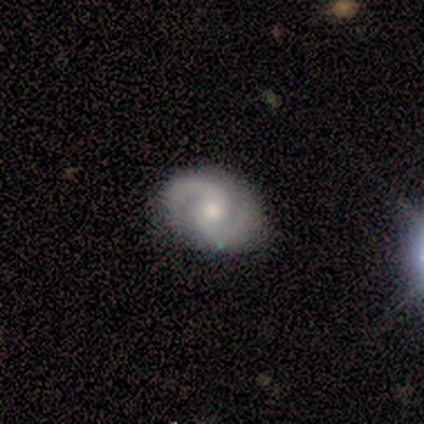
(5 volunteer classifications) smooth_or_featured: featured or disk (p=1.00)
disk_edge_on: no (p=1.00)
bar: no (p=0.80) [alt: strong p=0.20]
has_spiral_arms: yes (p=1.00)
spiral_winding: medium (p=0.60) [alt: tight p=0.20]
spiral_arm_count: 2 (p=1.00)
bulge_size: moderate (p=0.60) [alt: small p=0.40]
merging: none (p=1.00)